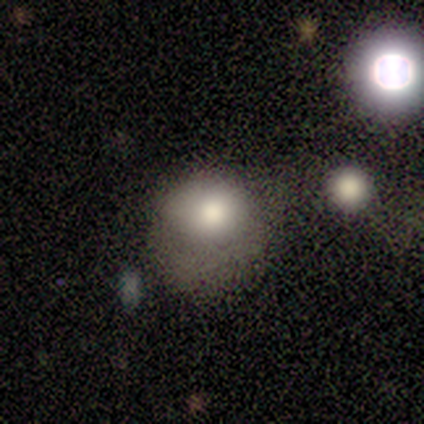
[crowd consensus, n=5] Overall: smooth (100%). How rounded: round (80%). Merging: minor disturbance (40%, tied with major disturbance).